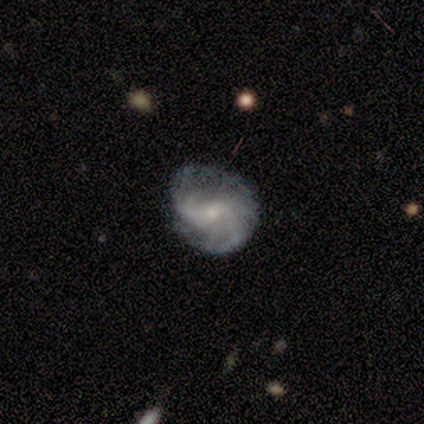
Smooth or featured: featured or disk — 60% (smooth — 40%)
Edge-on disk: no — 100%
Bar: no — 100%
Spiral arms: yes — 100%
Spiral winding: loose — 67% (medium — 33%)
Spiral arm count: can't tell — 100%
Bulge size: small — 100%
Merging: none — 80% (minor disturbance — 20%)